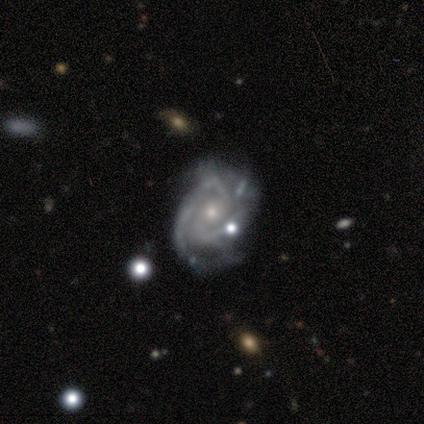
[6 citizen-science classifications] This appears to be a featured or disk galaxy (100%) with no bar (67%), 2 (67%) tight (83%) spiral arms (100%) and a moderate central bulge (50%, tied with small). Merging: none (83%).